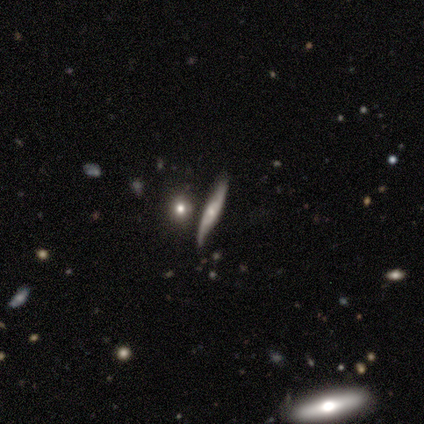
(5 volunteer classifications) Volunteers were most divided on "edge-on disk" (2-way tie): yes: 50%, no: 50%; "edge-on bulge" (2-way tie): none: 50%, rounded: 50%, boxy: 0%. More confident: merging — none (100%); smooth or featured — featured or disk (80%).